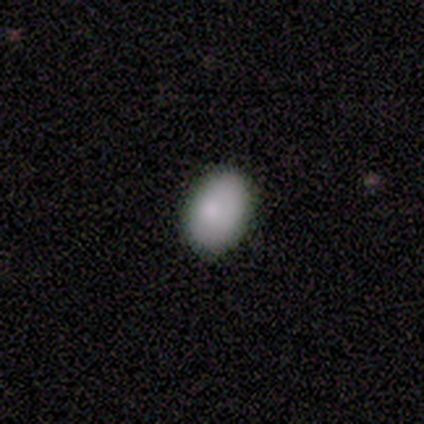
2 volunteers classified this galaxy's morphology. Q: Smooth or featured?
A: smooth (100%)
Q: How rounded?
A: in between (100%)
Q: Merging?
A: none (50%); tied with: minor disturbance (50%)